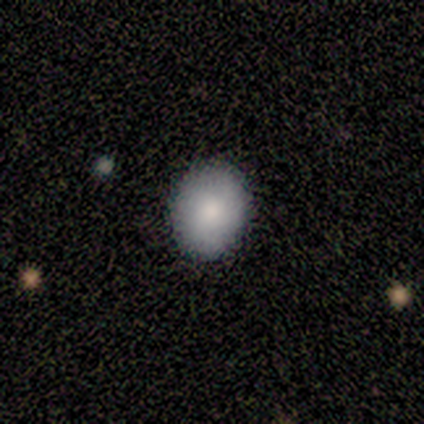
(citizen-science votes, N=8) This appears to be a smooth galaxy with no disk features (88%) that is in between round and cigar-shaped (71%). Merging: none (86%).